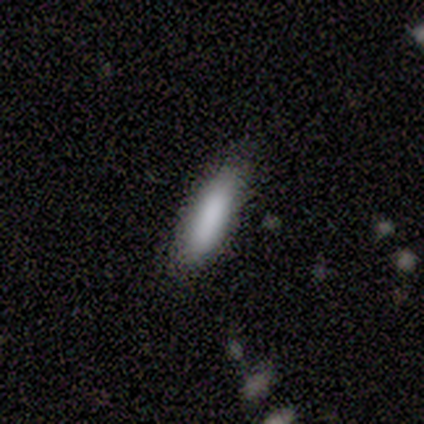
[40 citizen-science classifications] A smooth galaxy with no disk features (85%) that is cigar-shaped (76%). Merging: none (81%).